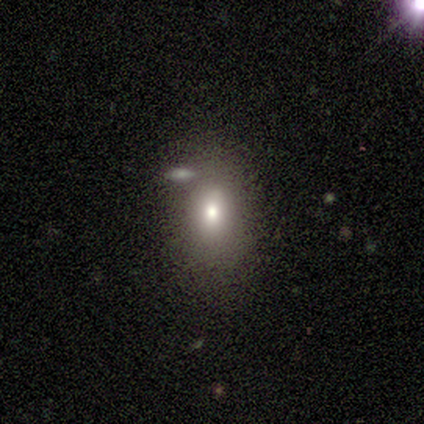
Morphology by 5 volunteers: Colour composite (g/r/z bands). It shows a featured or disk galaxy (60%) with a weak bar (67%), no spiral arms (100%) and a moderate central bulge (100%). Merging: none (50%).